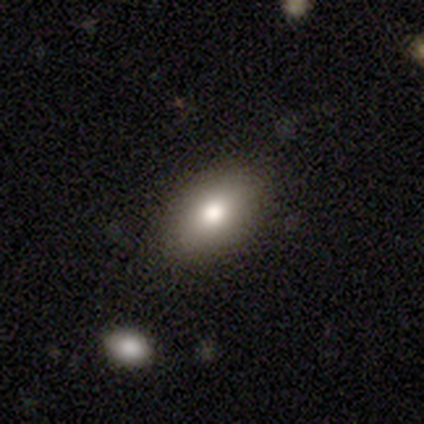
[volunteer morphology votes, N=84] smooth-or-featured: smooth: 83% | featured or disk: 10% | star or artifact: 7%
  how-rounded: in between: 87% | round: 10% | cigar-shaped: 3%
  merging: none: 90% | minor disturbance: 9% | major disturbance: 1% | merger: 0%